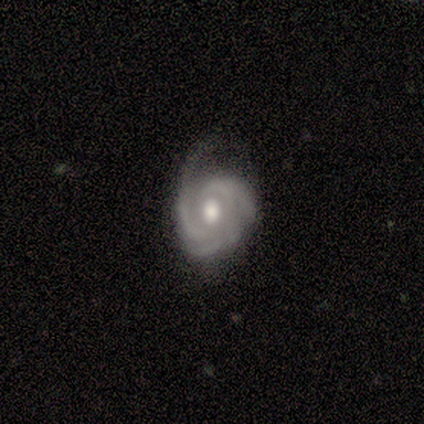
Morphology: type=featured or disk (100%); edge-on=no (100%); bar=no (80%); spiral arms=yes (100%); winding=tight (80%); arm count=3 (40%, tied with 4); bulge=moderate (80%); merging=minor disturbance (60%).